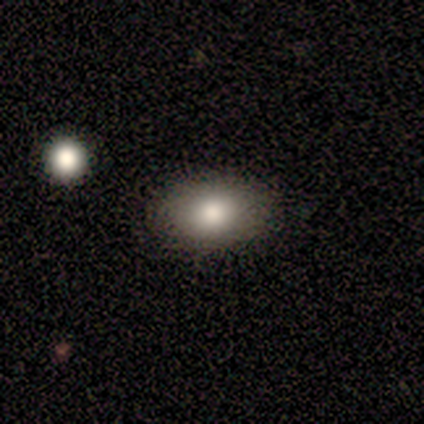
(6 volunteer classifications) smooth_or_featured: smooth (p=0.83) [alt: star or artifact p=0.17]
how_rounded: in between (p=1.00)
merging: none (p=1.00)